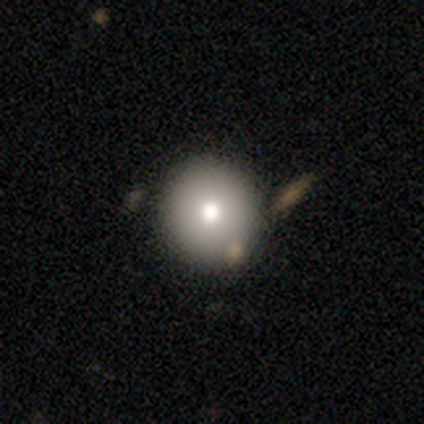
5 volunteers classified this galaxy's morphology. Volunteers were most divided on "smooth or featured": smooth: 60%, featured or disk: 20%, star or artifact: 20%. More confident: how rounded — round (100%); merging — none (100%).